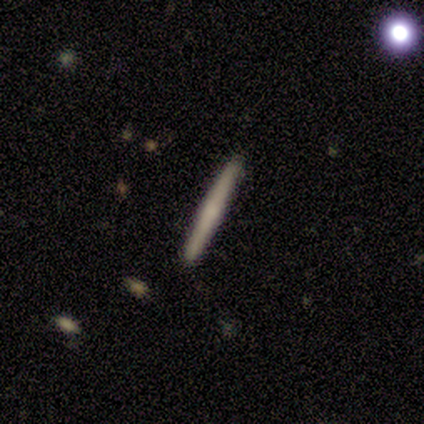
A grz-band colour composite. It shows a featured or disk galaxy (80%) viewed edge-on (100%) with no central bulge (75%). Merging: none (100%).